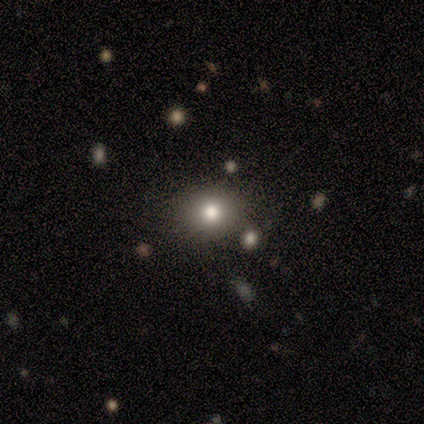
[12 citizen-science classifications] smooth 75%, featured or disk 17%, star or artifact 8%. Down the decision tree: how rounded — round (56%); merging — none (73%).